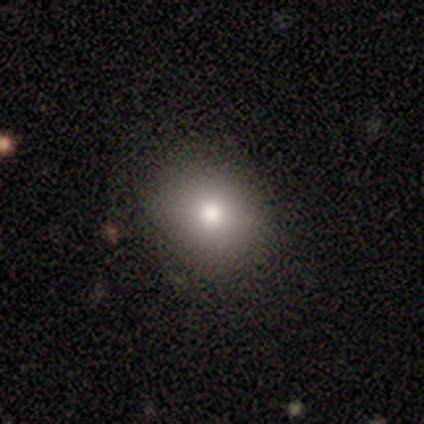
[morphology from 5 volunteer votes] This appears to be a smooth galaxy with no disk features (60%) that is round (67%). Merging: none (80%).